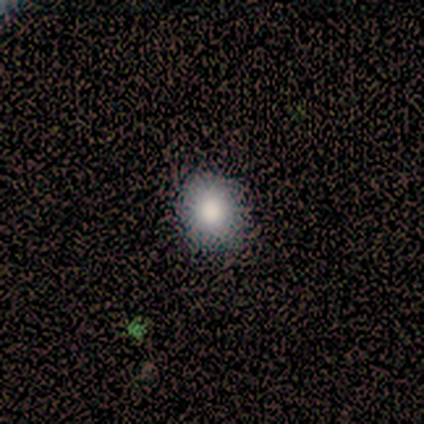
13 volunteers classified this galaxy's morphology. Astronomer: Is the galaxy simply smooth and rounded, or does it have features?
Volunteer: smooth — 62%.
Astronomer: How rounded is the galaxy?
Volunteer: round — 75%.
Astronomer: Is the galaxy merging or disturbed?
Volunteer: none — 91%.